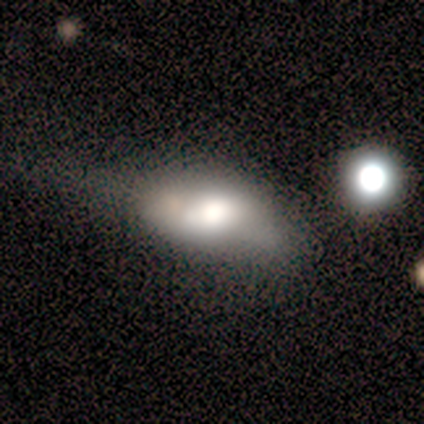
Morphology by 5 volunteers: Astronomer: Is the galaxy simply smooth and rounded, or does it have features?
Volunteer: smooth — 60% (runner-up: featured or disk, 40%).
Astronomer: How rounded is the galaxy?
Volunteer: round — 33%, tied with in between and cigar-shaped at 33%.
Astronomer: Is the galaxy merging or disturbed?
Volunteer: major disturbance — 40% (runner-up: none, 20%).